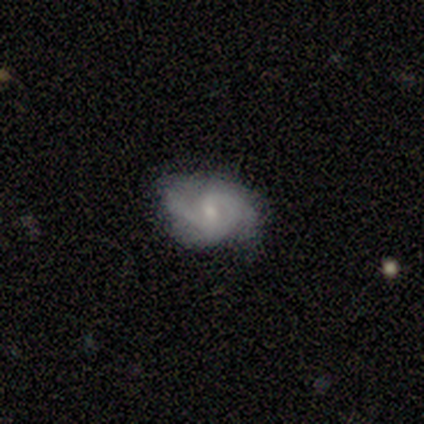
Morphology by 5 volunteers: Q: Smooth or featured?
A: featured or disk (100%)
Q: Edge-on disk?
A: no (100%)
Q: Bar?
A: weak (60%); runner-up: no (40%)
Q: Spiral arms?
A: yes (60%); runner-up: no (40%)
Q: Spiral winding?
A: medium (67%); runner-up: tight (33%)
Q: Spiral arm count?
A: 2 (67%); runner-up: 3 (33%)
Q: Bulge size?
A: small (60%); runner-up: moderate (40%)
Q: Merging?
A: none (40%); tied with: minor disturbance (40%)